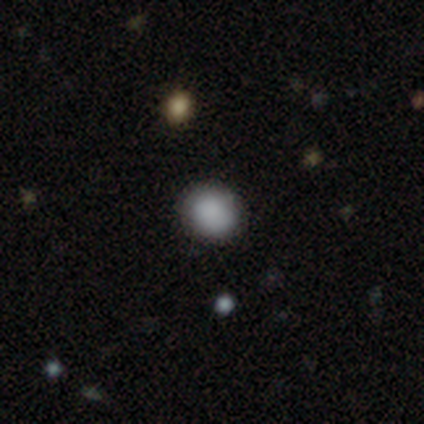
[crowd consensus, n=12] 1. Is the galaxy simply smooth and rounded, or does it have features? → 83% smooth, 8% featured or disk, 8% star or artifact.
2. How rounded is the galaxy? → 60% round, 40% in between, 0% cigar-shaped.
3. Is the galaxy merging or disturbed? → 82% none, 18% minor disturbance, 0% major disturbance, 0% merger.